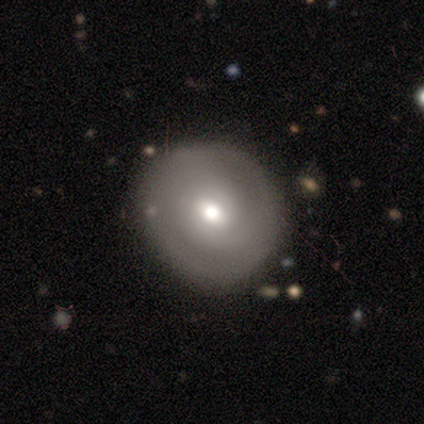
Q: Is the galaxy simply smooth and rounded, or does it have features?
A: featured or disk — 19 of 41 (46%).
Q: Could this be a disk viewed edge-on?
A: no — 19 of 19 (100%).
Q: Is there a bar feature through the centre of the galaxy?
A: weak — 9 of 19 (47%, tied with no).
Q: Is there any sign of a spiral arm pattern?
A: no — 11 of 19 (58%).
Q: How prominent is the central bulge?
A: moderate — 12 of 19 (63%).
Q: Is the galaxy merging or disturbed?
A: none — 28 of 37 (76%).